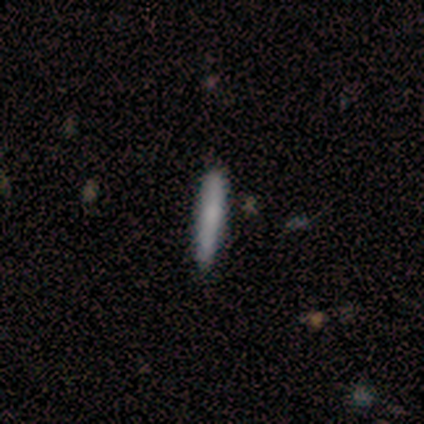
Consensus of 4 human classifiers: This is clearly a smooth galaxy (100%). How rounded: clearly cigar-shaped (100%). Merging: clearly none (100%).